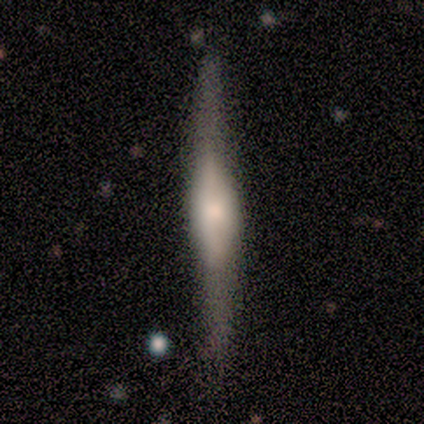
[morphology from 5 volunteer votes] Smooth or featured?
  - featured or disk: 80% *
  - smooth: 20%
  - star or artifact: 0%
Edge-on disk?
  - yes: 75% *
  - no: 25%
Edge-on bulge?
  - rounded: 67% *
  - boxy: 33%
  - none: 0%
Merging?
  - none: 60% *
  - minor disturbance: 40%
  - major disturbance: 0%
  - merger: 0%